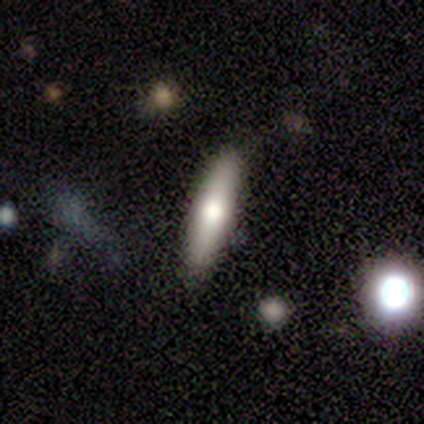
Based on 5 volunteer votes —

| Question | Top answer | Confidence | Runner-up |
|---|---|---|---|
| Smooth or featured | smooth | 60% | featured or disk (40%) |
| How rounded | cigar-shaped | 100% | — |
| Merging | none | 100% | — |